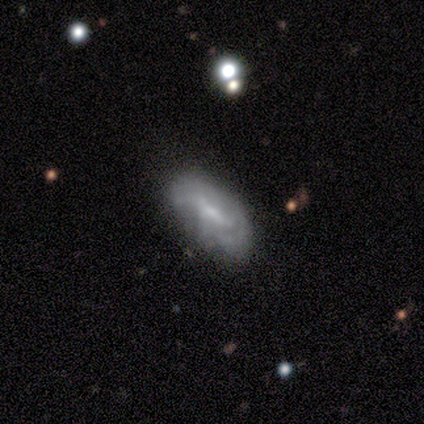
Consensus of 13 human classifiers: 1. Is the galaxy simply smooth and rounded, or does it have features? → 69% featured or disk, 31% smooth, 0% star or artifact.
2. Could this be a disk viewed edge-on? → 100% no, 0% yes.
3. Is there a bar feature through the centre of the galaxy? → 67% weak, 22% strong, 11% no.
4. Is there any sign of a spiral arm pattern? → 56% yes, 44% no.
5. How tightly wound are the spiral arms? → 80% medium, 20% loose, 0% tight.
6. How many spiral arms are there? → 60% can't tell, 20% 2, 20% 3, 0% 1, 0% 4, 0% more than 4.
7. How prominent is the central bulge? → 44% moderate, 33% none, 22% small, 0% dominant, 0% large.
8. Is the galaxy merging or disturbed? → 62% none, 31% minor disturbance, 8% major disturbance, 0% merger.